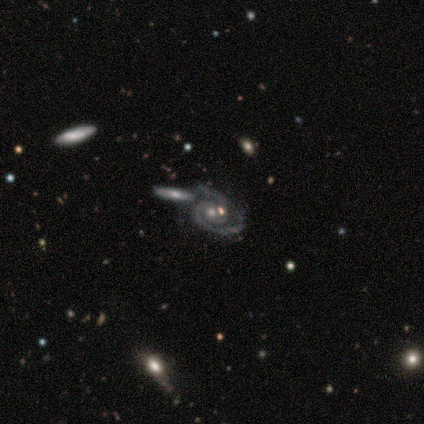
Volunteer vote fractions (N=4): Smooth or featured? 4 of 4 (100%) said featured or disk. Edge-on disk? 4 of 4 (100%) said no. Bar? 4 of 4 (100%) said no. Spiral arms? 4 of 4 (100%) said yes. Spiral winding? 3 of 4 (75%) said medium. Spiral arm count? 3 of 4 (75%) said 1. Bulge size? 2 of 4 (50%, tied with small) said moderate. Merging? 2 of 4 (50%, tied with merger) said none.